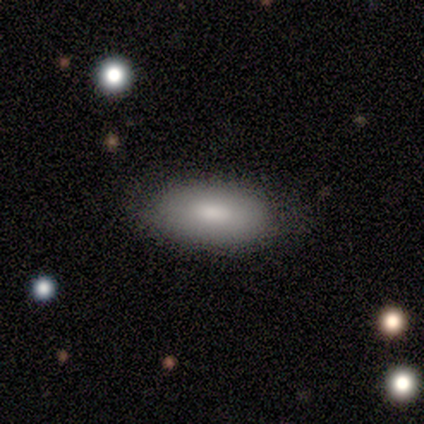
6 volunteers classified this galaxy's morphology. Overall: smooth (50%, tied with featured or disk). How rounded: in between (100%). Merging: none (100%).